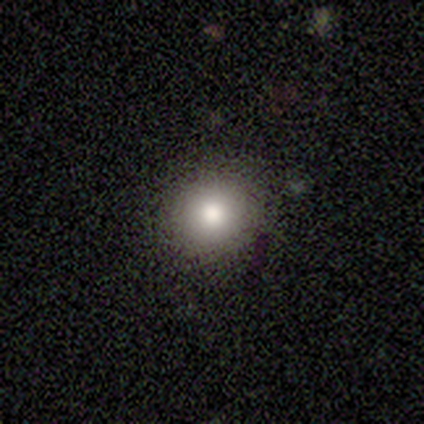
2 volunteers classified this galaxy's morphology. Smooth or featured? smooth (100%)
How rounded? round (100%)
Merging? none (100%)